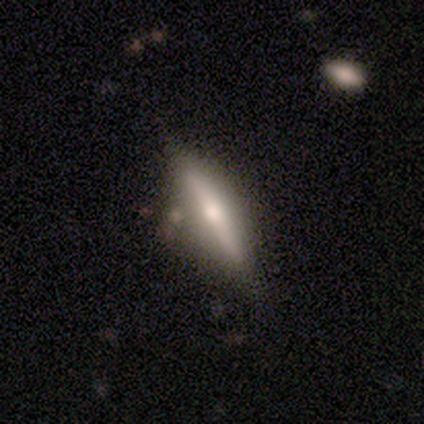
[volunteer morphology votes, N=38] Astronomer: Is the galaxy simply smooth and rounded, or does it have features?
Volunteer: featured or disk — 61% (runner-up: smooth, 39%).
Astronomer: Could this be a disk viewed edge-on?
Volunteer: yes — 96%.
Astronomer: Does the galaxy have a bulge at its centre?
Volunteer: rounded — 86%.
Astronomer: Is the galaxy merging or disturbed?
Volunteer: none — 55%.